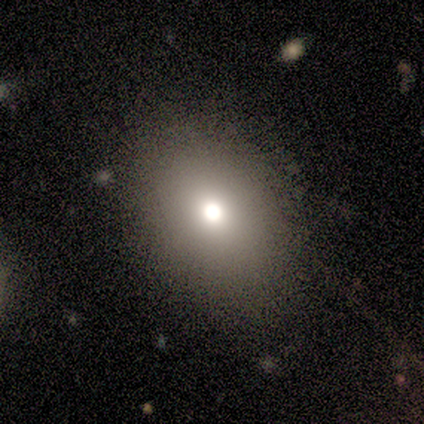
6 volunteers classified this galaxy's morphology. Smooth or featured?
  - smooth: 67% *
  - featured or disk: 17%
  - star or artifact: 17%
How rounded?
  - in between: 75% *
  - round: 25%
  - cigar-shaped: 0%
Merging?
  - none: 60% *
  - minor disturbance: 40%
  - major disturbance: 0%
  - merger: 0%